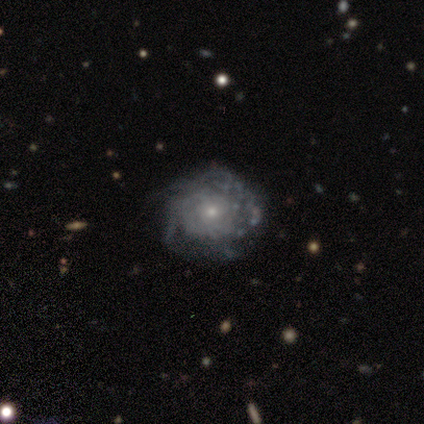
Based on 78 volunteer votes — Smooth or featured? featured or disk (86%)
Edge-on disk? no (97%)
Bar? no (86%)
Spiral arms? yes (82%)
Spiral winding? tight (66%)
Spiral arm count? can't tell (72%)
Bulge size? small (71%)
Merging? none (37%)